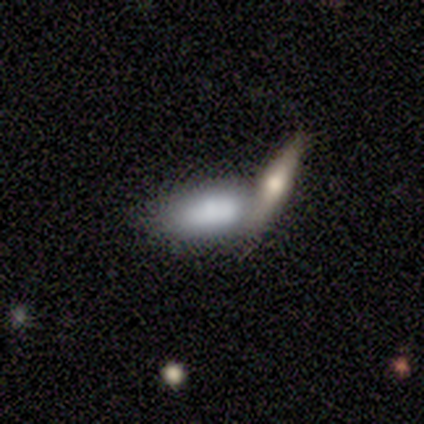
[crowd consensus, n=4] Smooth or featured? 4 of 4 (100%) said smooth. How rounded? 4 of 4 (100%) said in between. Merging? 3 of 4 (75%) said merger.